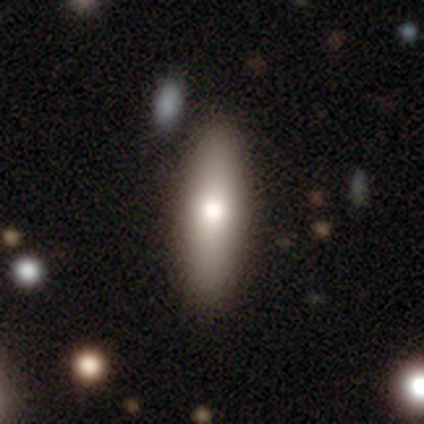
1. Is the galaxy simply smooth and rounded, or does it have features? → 78% smooth, 22% featured or disk, 0% star or artifact.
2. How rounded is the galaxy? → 71% cigar-shaped, 29% in between, 0% round.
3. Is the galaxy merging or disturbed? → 62% none, 5% minor disturbance, 5% merger, 0% major disturbance.